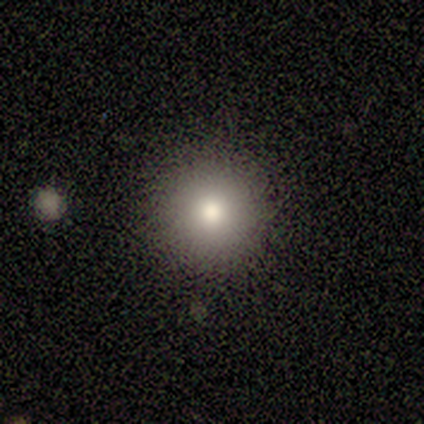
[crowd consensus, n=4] smooth_or_featured: smooth (p=1.00)
how_rounded: round (p=1.00)
merging: none (p=1.00)